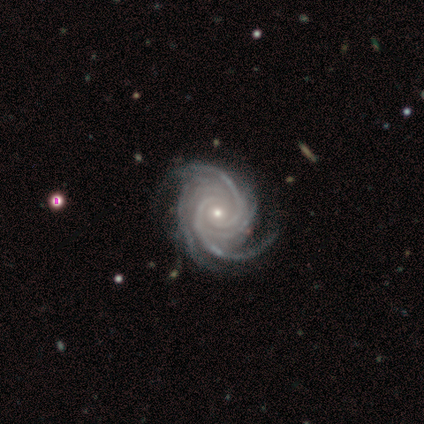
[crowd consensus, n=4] Smooth or featured: featured or disk — 100%
Edge-on disk: no — 100%
Bar: no — 100%
Spiral arms: yes — 100%
Spiral winding: tight — 75% (medium — 25%)
Spiral arm count: 4 — 50% (3 — 25%)
Bulge size: moderate — 50% (tied with small — 50%)
Merging: minor disturbance — 50% (none — 25%)